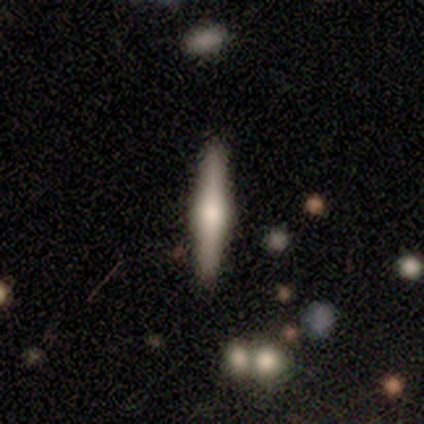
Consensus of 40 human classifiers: featured or disk 70%, smooth 30%, star or artifact 0%. Down the decision tree: edge-on disk — yes (96%); edge-on bulge — rounded (85%); merging — none (75%).